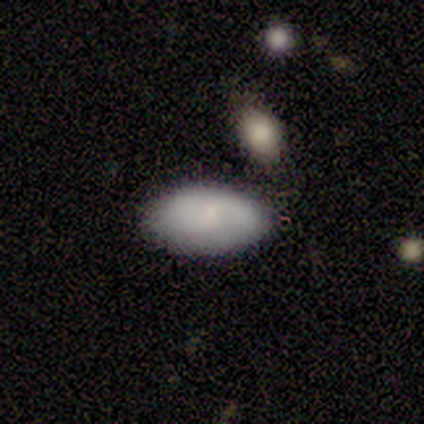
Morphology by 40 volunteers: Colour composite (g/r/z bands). It shows a smooth galaxy with no disk features (75%) that is in between round and cigar-shaped (97%). Merging: none (77%).